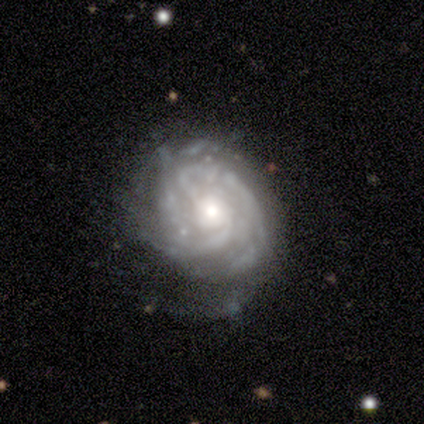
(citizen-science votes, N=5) A featured or disk galaxy (80%) with a weak bar (50%), tight (75%) spiral arms (100%) and a moderate central bulge (75%). Merging: none (60%).